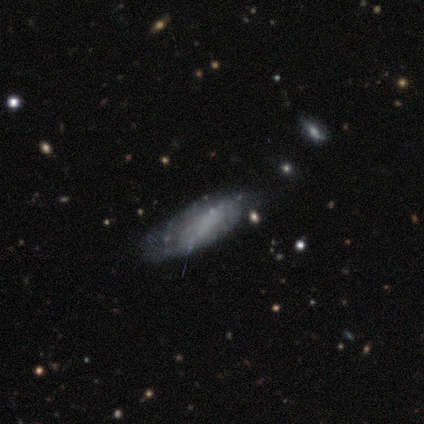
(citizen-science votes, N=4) This appears to be a smooth galaxy with no disk features (75%) that is in between round and cigar-shaped (100%). Merging: minor disturbance (50%).